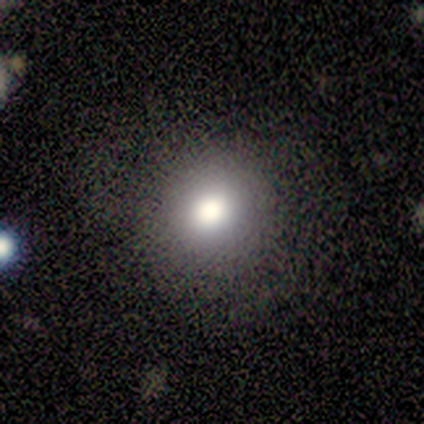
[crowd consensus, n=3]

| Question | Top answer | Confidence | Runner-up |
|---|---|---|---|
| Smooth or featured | smooth | 67% | star or artifact (33%) |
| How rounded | round | 100% | — |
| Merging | none | 100% | — |